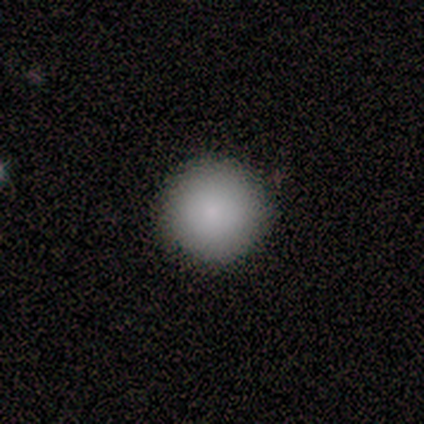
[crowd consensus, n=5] A smooth galaxy with no disk features (80%) that is round (100%). Merging: none (80%).